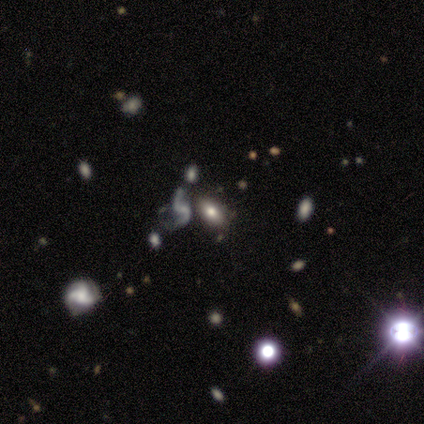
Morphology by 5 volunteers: Smooth or featured? 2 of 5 (40%, tied with star or artifact) said smooth. How rounded? 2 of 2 (100%) said in between. Merging? 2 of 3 (67%) said none.